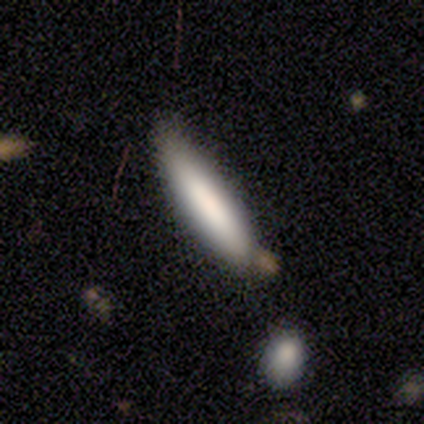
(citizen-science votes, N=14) Volunteers were most divided on "how rounded": in between: 55%, cigar-shaped: 45%, round: 0%. More confident: smooth or featured — smooth (79%); merging — none (55%).